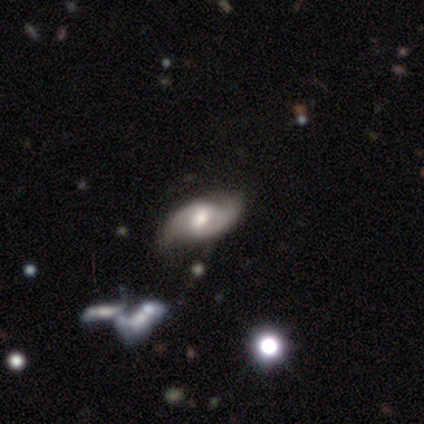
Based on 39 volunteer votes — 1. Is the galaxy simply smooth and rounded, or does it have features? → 82% featured or disk, 15% smooth, 3% star or artifact.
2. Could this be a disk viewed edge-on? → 97% no, 3% yes.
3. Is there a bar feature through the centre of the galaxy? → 48% weak, 42% no, 10% strong.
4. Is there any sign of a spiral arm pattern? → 100% yes, 0% no.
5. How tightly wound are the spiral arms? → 52% medium, 26% loose, 23% tight.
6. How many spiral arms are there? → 94% 2, 3% 3, 3% can't tell, 0% 1, 0% 4, 0% more than 4.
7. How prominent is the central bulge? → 77% moderate, 13% small, 10% large, 0% dominant, 0% none.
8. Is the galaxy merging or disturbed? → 66% none, 21% minor disturbance, 8% merger, 5% major disturbance.